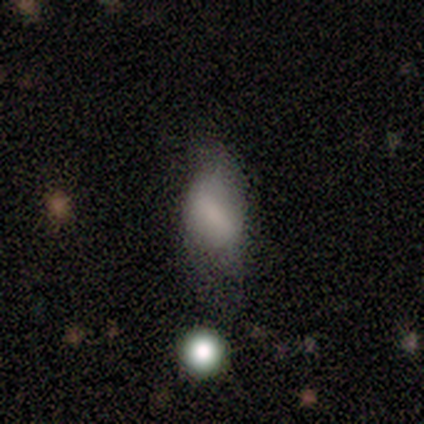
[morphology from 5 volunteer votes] smooth 80%, featured or disk 20%, star or artifact 0%. Down the decision tree: how rounded — in between (100%); merging — minor disturbance (60%).